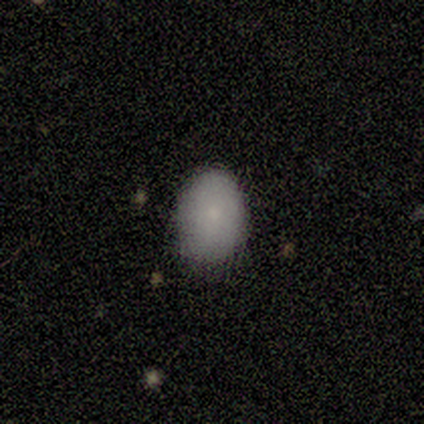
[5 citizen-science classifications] Volunteers were most divided on "how rounded" (2-way tie): round: 50%, in between: 50%, cigar-shaped: 0%. More confident: smooth or featured — smooth (80%); merging — none (50%).